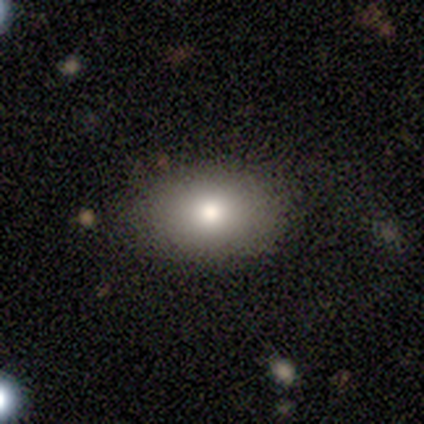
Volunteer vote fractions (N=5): smooth 60%, featured or disk 40%, star or artifact 0%. Down the decision tree: how rounded — in between (67%); merging — none (80%).